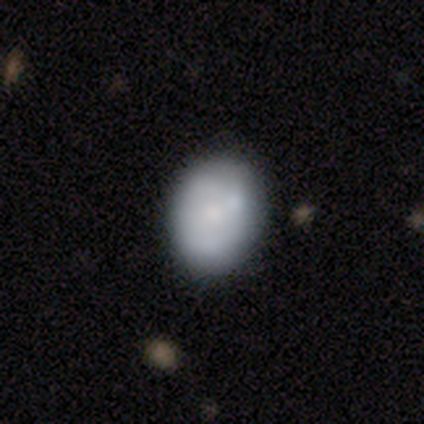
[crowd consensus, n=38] smooth 68%, featured or disk 18%, star or artifact 13%. Down the decision tree: how rounded — in between (62%); merging — none (79%).